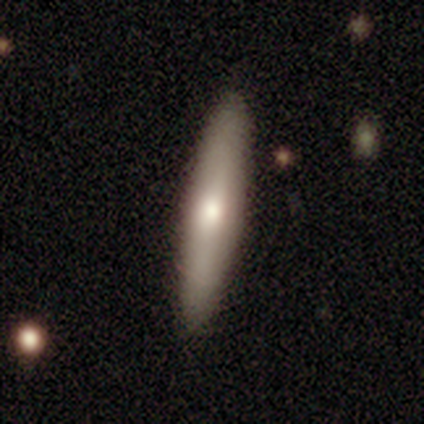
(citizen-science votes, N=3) smooth-or-featured: smooth: 67% | featured or disk: 33% | star or artifact: 0%
  how-rounded: cigar-shaped: 100% | round: 0% | in between: 0%
  merging: none: 100% | minor disturbance: 0% | major disturbance: 0% | merger: 0%